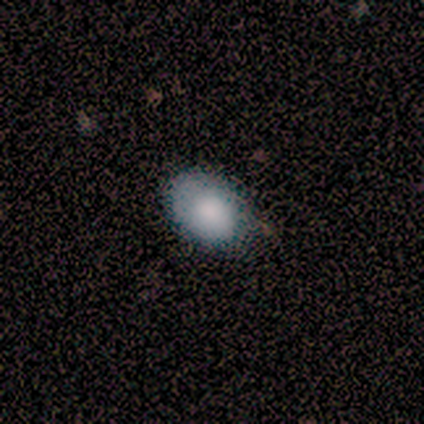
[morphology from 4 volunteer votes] This is clearly a smooth galaxy (100%). How rounded: likely in between (75%). Merging: likely none (75%).